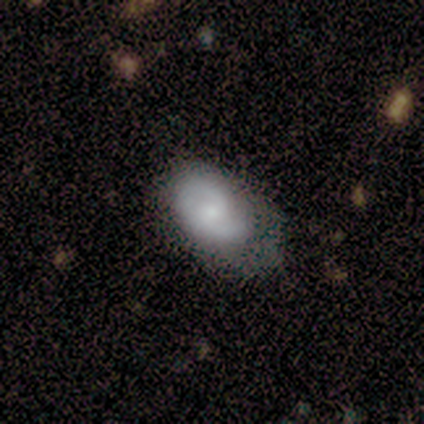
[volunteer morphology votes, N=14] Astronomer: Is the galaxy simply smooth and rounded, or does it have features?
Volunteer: smooth — 50% (runner-up: featured or disk, 43%).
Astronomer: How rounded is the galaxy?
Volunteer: in between — 100%.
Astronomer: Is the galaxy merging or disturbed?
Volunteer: minor disturbance — 54% (runner-up: none, 31%).